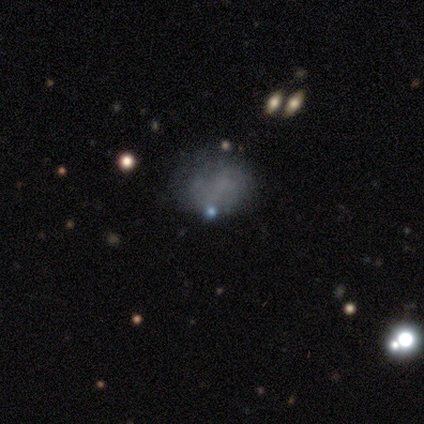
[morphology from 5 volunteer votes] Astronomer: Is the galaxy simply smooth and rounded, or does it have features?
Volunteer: smooth — 40%, tied with featured or disk at 40%.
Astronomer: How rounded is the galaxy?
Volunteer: round — 100%.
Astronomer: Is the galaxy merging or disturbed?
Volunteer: none — 75%.